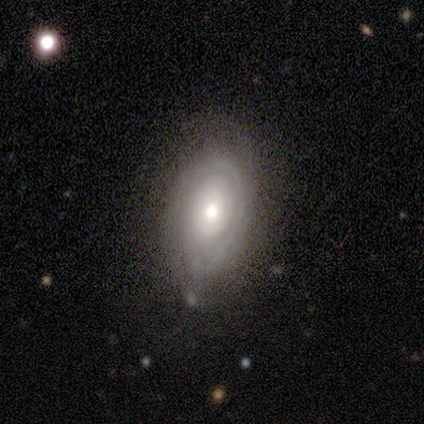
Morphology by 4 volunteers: This is clearly a featured or disk galaxy (100%). It is clearly not viewed edge-on (100%). Bar: likely no (75%). Spiral arm pattern: possibly yes (50%, tied with no). Spiral arm count: clearly 2 (100%). Spiral winding: clearly tight (100%). Central bulge: possibly moderate (50%). Merging: likely none (75%).